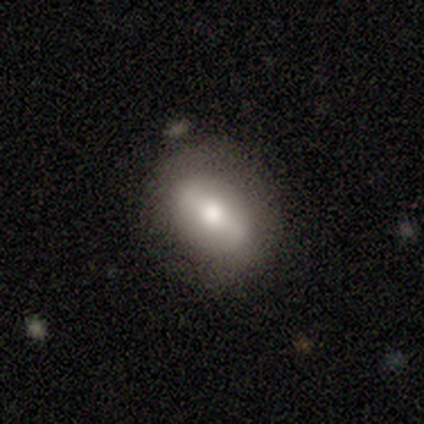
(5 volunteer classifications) A smooth galaxy with no disk features (80%) that is round (50%, tied with in between).

Vote fractions:
- Smooth or featured? smooth: 80% / featured or disk: 20% / star or artifact: 0%
- How rounded? round: 50% (tied) / in between: 50% (tied) / cigar-shaped: 0%
- Merging? none: 60% / minor disturbance: 40% / major disturbance: 0% / merger: 0%